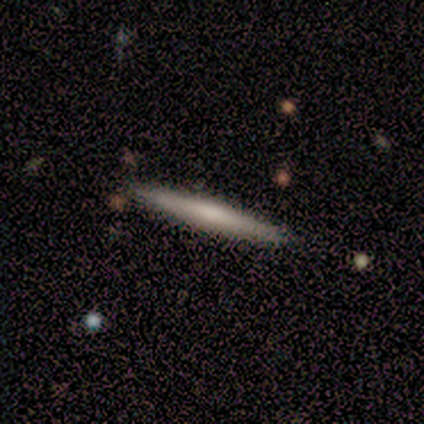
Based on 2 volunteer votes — smooth-or-featured: smooth: 50% (tied) | featured or disk: 50% (tied) | star or artifact: 0%
  how-rounded: cigar-shaped: 100% | round: 0% | in between: 0%
  merging: none: 100% | minor disturbance: 0% | major disturbance: 0% | merger: 0%